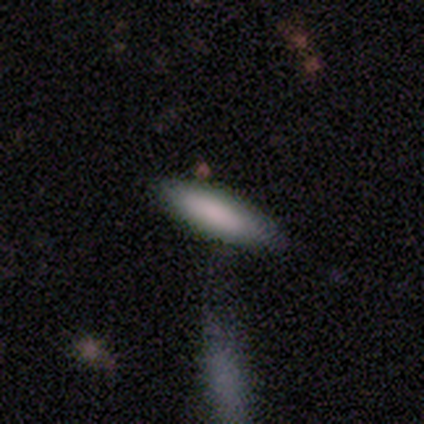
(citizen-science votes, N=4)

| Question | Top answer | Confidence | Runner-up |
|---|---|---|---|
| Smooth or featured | smooth | 50% | featured or disk (25%) |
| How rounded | in between | 50% | tied: cigar-shaped (50%) |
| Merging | none | 67% | minor disturbance (33%) |